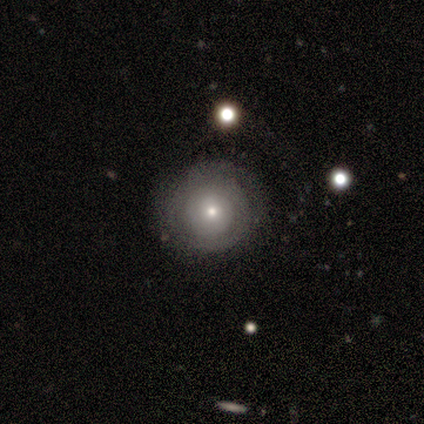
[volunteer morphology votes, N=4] Smooth or featured? 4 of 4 (100%) said featured or disk. Edge-on disk? 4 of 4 (100%) said no. Bar? 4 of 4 (100%) said no. Spiral arms? 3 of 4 (75%) said no. Bulge size? 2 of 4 (50%, tied with small) said moderate. Merging? 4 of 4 (100%) said none.